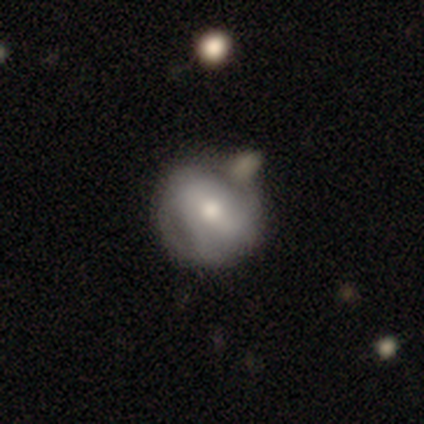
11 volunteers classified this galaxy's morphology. Volunteers were most divided on "smooth or featured": featured or disk: 55%, smooth: 45%, star or artifact: 0%. More confident: edge-on disk — no (100%); bar — weak (83%); spiral arms — yes (83%); spiral winding — medium (80%); merging — none (64%); spiral arm count — 2 (60%); bulge size — moderate (50%).